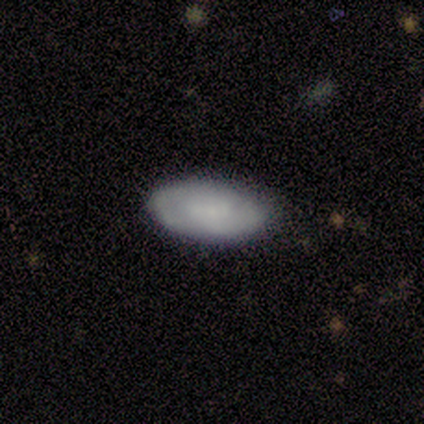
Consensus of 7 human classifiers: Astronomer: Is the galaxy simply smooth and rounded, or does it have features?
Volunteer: featured or disk — 71%.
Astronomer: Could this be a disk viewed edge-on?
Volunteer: no — 100%.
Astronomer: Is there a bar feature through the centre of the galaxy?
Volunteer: weak — 60%.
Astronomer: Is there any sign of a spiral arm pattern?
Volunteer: yes — 80%.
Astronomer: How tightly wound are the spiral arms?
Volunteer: tight — 50%, tied with medium at 50%.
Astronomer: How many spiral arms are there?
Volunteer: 2 — 50%.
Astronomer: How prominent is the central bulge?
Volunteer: small — 60%.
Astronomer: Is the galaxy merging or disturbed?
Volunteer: none — 100%.